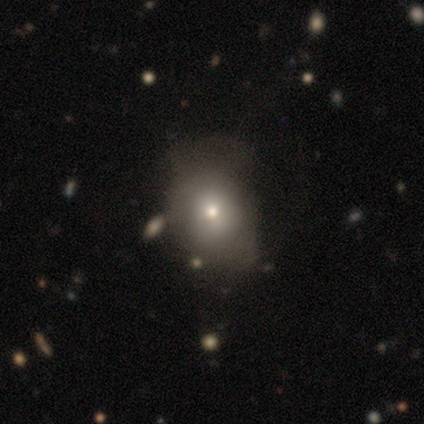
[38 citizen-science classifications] A smooth galaxy with no disk features (61%) that is round (52%). Merging: none (59%).